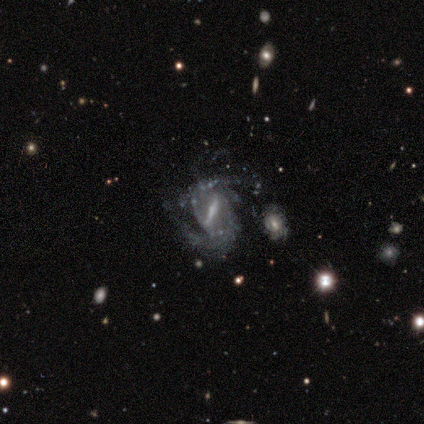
Smooth or featured? 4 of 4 (100%) said featured or disk. Edge-on disk? 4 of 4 (100%) said no. Bar? 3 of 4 (75%) said strong. Spiral arms? 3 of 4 (75%) said yes. Spiral winding? 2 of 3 (67%) said medium. Spiral arm count? 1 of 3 (33%, tied with 3 and can't tell) said 1. Bulge size? 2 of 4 (50%) said small. Merging? 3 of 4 (75%) said minor disturbance.